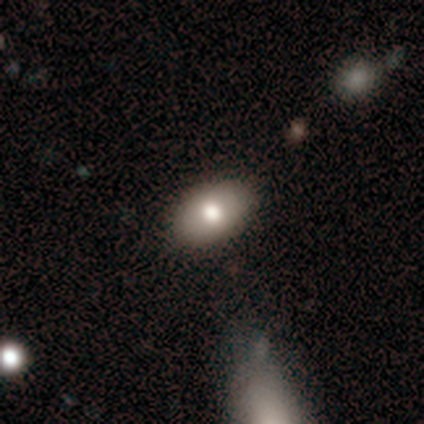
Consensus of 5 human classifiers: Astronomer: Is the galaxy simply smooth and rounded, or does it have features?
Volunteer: smooth — 100%.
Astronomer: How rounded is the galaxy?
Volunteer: in between — 100%.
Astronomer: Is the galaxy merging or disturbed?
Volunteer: none — 80%.